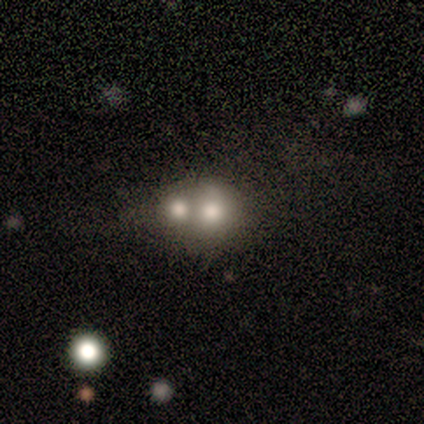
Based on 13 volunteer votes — Smooth or featured? 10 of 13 (77%) said smooth. How rounded? 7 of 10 (70%) said round. Merging? 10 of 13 (77%) said merger.